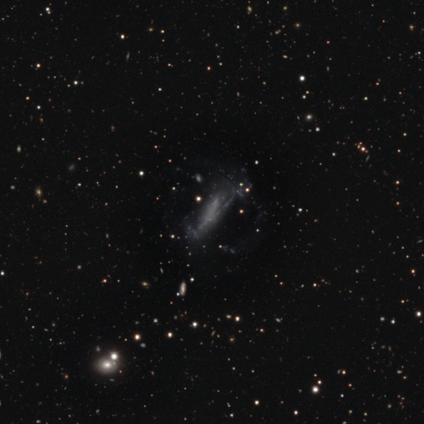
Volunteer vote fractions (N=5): Volunteers were most divided on "smooth or featured": featured or disk: 80%, star or artifact: 20%, smooth: 0%. More confident: edge-on disk — no (100%); bar — no (100%); spiral arms — no (100%); bulge size — none (100%); merging — major disturbance (100%).